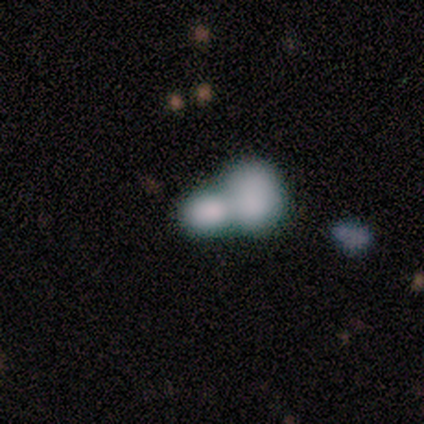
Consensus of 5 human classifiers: This appears to be a smooth galaxy with no disk features (80%) that is round (75%). Merging: merger (100%).